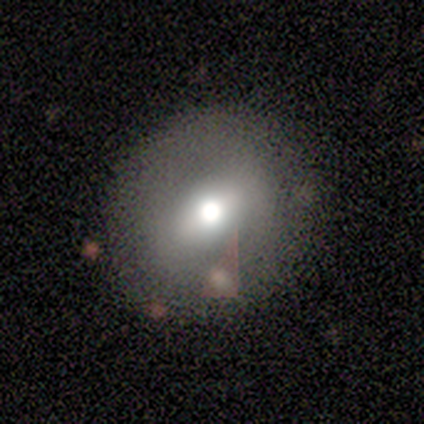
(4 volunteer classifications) A smooth galaxy with no disk features (75%) that is round (67%). Merging: none (75%).